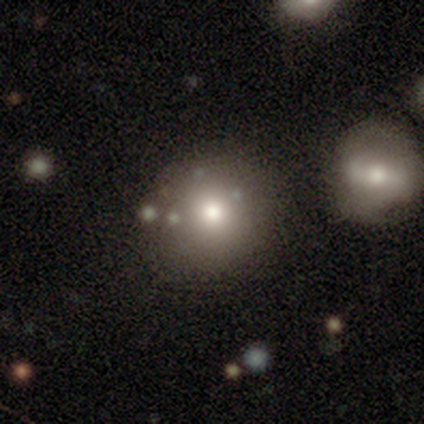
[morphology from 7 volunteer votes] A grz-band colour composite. It shows a smooth galaxy with no disk features (86%) that is round (100%). Merging: none (43%).